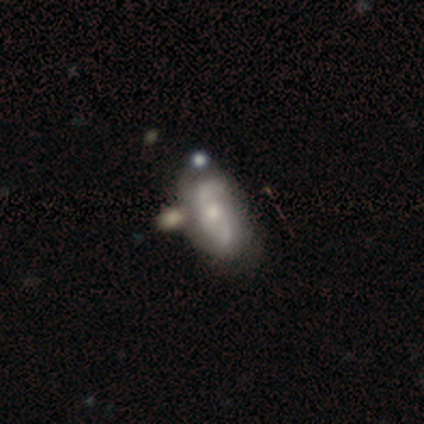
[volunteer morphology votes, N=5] A featured or disk galaxy (100%) with no bar (60%), 2 (100%) medium (60%) spiral arms (100%) and a small central bulge (60%). Merging: none (40%, tied with minor disturbance).